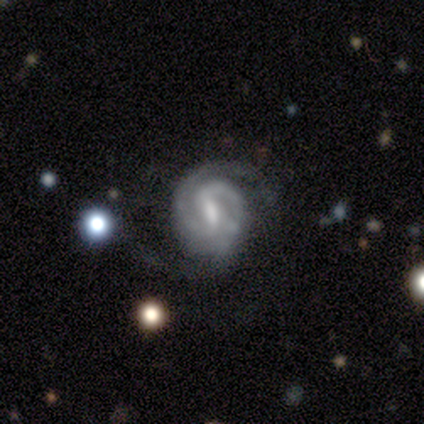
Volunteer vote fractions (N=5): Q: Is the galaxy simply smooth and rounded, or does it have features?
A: featured or disk — 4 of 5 (80%).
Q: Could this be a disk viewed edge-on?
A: no — 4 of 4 (100%).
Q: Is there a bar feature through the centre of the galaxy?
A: weak — 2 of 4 (50%).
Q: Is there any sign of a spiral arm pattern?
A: yes — 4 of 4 (100%).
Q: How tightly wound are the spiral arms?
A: medium — 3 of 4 (75%).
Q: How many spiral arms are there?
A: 2 — 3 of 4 (75%).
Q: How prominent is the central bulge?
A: small — 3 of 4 (75%).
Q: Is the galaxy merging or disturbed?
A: none — 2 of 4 (50%).